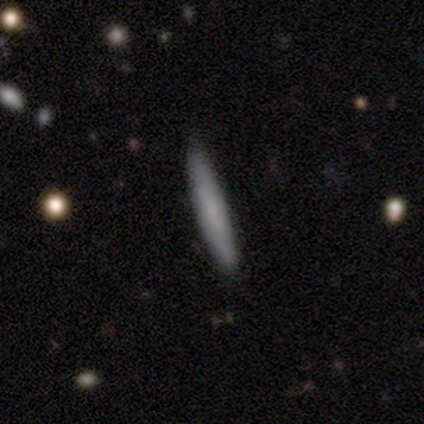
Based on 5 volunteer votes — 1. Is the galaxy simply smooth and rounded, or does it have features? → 80% smooth, 20% featured or disk, 0% star or artifact.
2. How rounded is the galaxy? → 100% cigar-shaped, 0% round, 0% in between.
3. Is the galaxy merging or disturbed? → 100% none, 0% minor disturbance, 0% major disturbance, 0% merger.